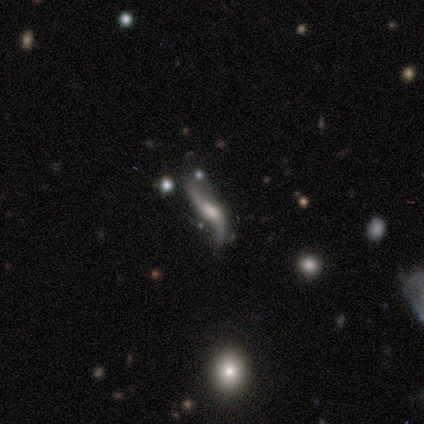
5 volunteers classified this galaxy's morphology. This appears to be a featured or disk galaxy (80%) with no bar (100%), 1 (50%, tied with 2) loose (100%) spiral arms (100%) and a moderate central bulge (50%). Merging: minor disturbance (40%).